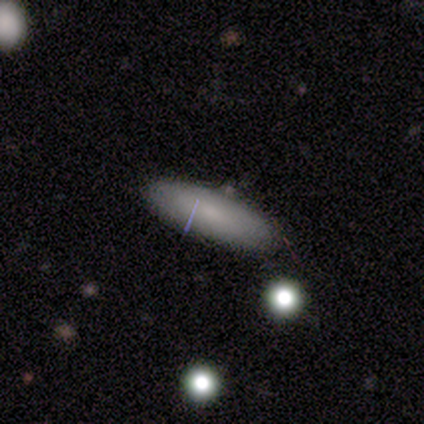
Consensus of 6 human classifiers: This appears to be a smooth galaxy with no disk features (83%) that is in between round and cigar-shaped (60%). Merging: none (83%).